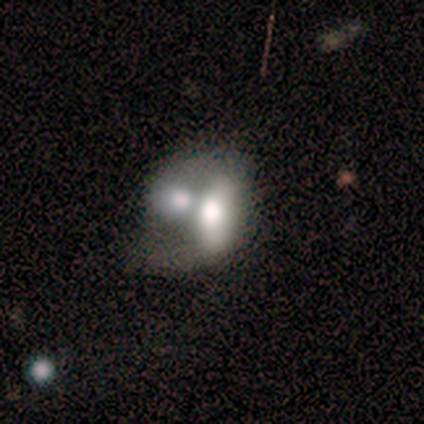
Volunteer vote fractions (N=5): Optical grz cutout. It shows a smooth galaxy with no disk features (60%) that is in between round and cigar-shaped (100%). Merging: merger (100%).